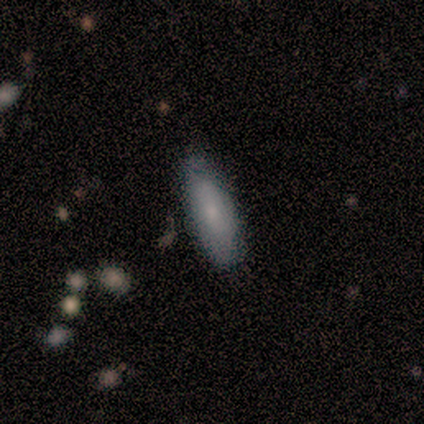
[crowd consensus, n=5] smooth 80%, featured or disk 20%, star or artifact 0%. Down the decision tree: how rounded — cigar-shaped (75%); merging — none (100%).